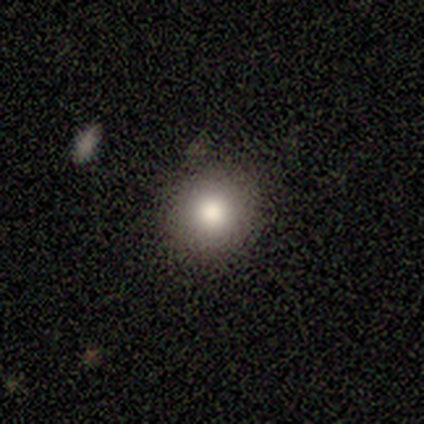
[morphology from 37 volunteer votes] Smooth or featured? smooth (73%)
How rounded? round (93%)
Merging? none (90%)